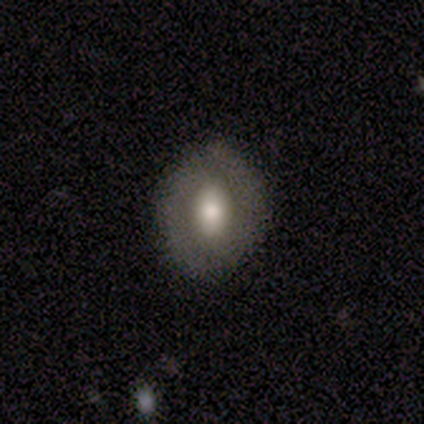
A smooth galaxy with no disk features (60%) that is in between round and cigar-shaped (67%). Merging: none (80%).